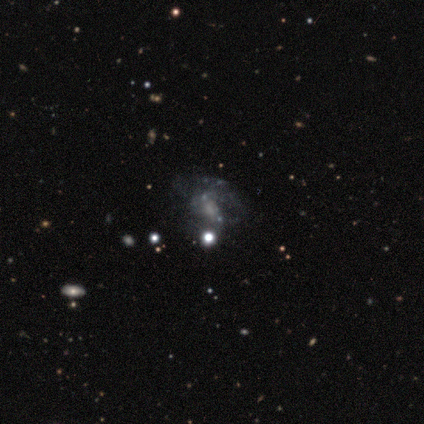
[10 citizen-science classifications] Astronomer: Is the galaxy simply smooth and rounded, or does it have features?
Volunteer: featured or disk — 70%.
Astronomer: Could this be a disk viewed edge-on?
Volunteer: no — 100%.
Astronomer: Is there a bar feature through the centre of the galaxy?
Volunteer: no — 86%.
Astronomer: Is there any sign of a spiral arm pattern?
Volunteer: no — 57% (runner-up: yes, 43%).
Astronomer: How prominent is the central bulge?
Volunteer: none — 71%.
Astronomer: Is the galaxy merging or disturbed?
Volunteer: none — 29%, tied with major disturbance and merger at 29%.